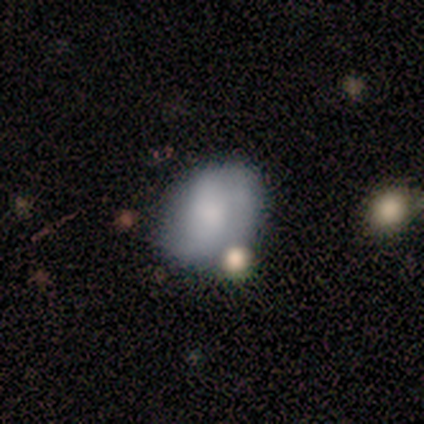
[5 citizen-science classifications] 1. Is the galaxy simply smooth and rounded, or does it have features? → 60% smooth, 40% featured or disk, 0% star or artifact.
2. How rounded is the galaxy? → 67% round, 33% in between, 0% cigar-shaped.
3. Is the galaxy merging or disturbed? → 60% merger, 20% none, 20% minor disturbance, 0% major disturbance.